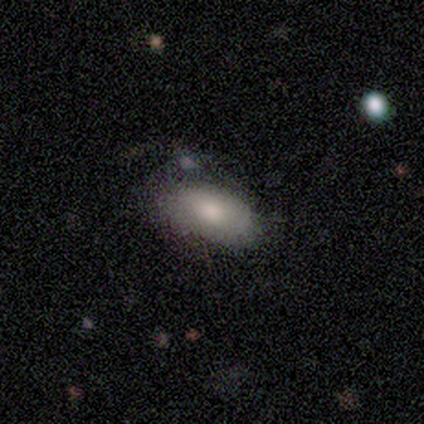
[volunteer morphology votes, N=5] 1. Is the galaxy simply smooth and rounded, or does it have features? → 100% smooth, 0% featured or disk, 0% star or artifact.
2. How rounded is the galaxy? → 100% in between, 0% round, 0% cigar-shaped.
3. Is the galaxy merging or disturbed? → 60% none, 40% minor disturbance, 0% major disturbance, 0% merger.